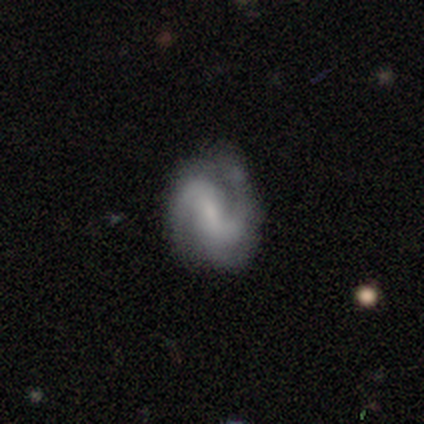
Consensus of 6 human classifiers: Volunteers were most divided on "bar": weak: 60%, strong: 40%, no: 0%. More confident: edge-on disk — no (100%); spiral arm count — 2 (100%); smooth or featured — featured or disk (83%); merging — none (83%); spiral arms — yes (80%); spiral winding — tight (75%); bulge size — small (60%).